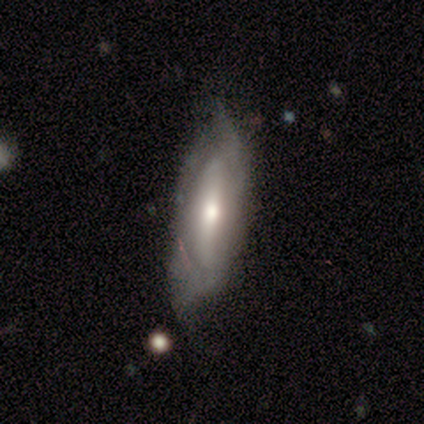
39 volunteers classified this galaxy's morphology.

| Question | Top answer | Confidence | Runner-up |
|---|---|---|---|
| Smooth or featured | featured or disk | 62% | smooth (33%) |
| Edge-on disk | no | 79% | yes (21%) |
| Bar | strong | 42% | no (37%) |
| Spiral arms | yes | 63% | no (37%) |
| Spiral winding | medium | 42% | tight (33%) |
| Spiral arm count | can't tell | 58% | 2 (42%) |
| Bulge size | moderate | 53% | small (37%) |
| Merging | minor disturbance | 46% | none (38%) |